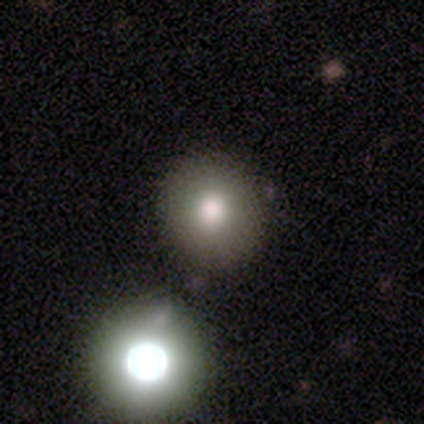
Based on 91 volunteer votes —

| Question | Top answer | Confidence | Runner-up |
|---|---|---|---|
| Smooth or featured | smooth | 75% | star or artifact (16%) |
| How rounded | round | 97% | in between (3%) |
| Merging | none | 82% | minor disturbance (9%) |